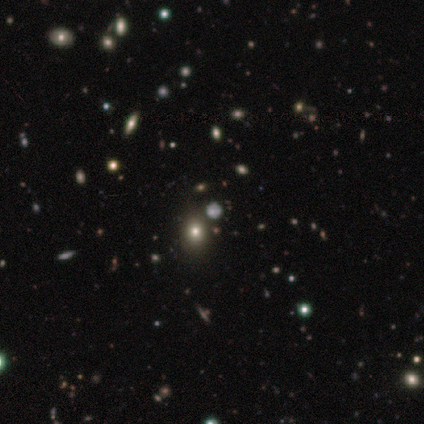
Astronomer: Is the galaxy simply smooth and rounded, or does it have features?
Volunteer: smooth — 67%.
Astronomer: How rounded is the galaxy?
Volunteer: in between — 100%.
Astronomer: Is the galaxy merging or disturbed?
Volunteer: none — 50%, tied with merger at 50%.